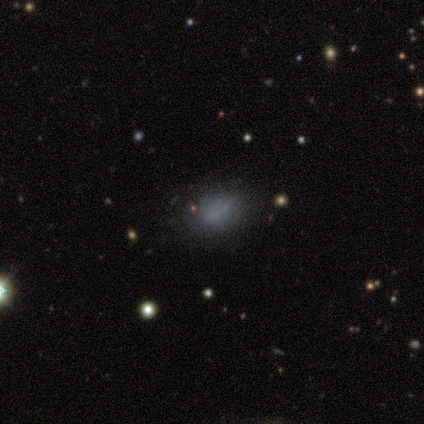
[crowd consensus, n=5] Smooth or featured? smooth (80%)
How rounded? in between (75%)
Merging? none (60%)